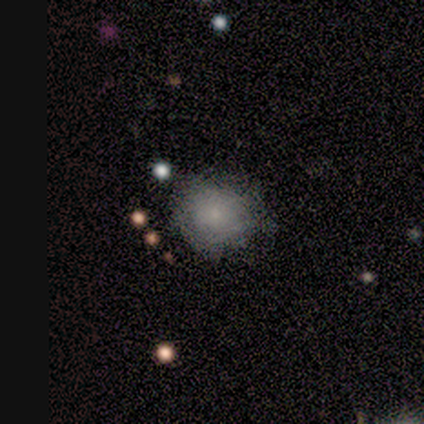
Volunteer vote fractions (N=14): This appears to be a smooth galaxy with no disk features (86%) that is round (67%). Merging: none (71%).